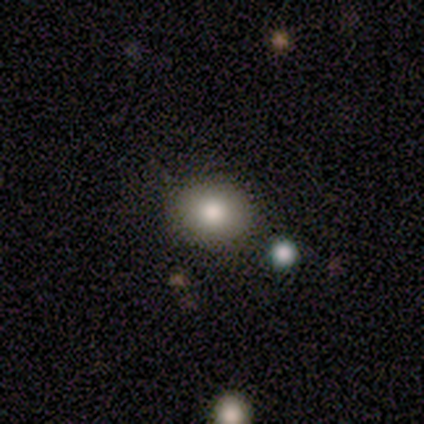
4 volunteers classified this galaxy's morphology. type=smooth (100%); roundness=round (75%); merging=none (75%).